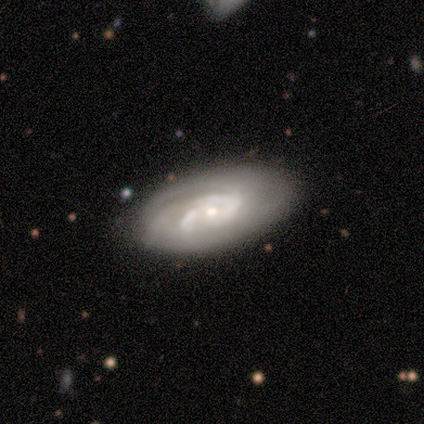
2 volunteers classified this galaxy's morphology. smooth_or_featured: featured or disk (p=1.00)
disk_edge_on: no (p=1.00)
bar: weak (p=0.50) [tied with: no p=0.50]
has_spiral_arms: yes (p=1.00)
spiral_winding: tight (p=1.00)
spiral_arm_count: 2 (p=0.50) [tied with: can't tell p=0.50]
bulge_size: large (p=0.50) [tied with: moderate p=0.50]
merging: none (p=1.00)